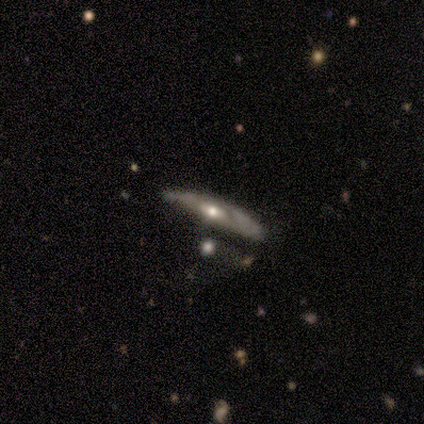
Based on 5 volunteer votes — Smooth or featured?
  - featured or disk: 60% *
  - smooth: 40%
  - star or artifact: 0%
Edge-on disk?
  - yes: 67% *
  - no: 33%
Edge-on bulge?
  - none: 100% *
  - boxy: 0%
  - rounded: 0%
Merging?
  - none: 60% *
  - minor disturbance: 20%
  - major disturbance: 20%
  - merger: 0%